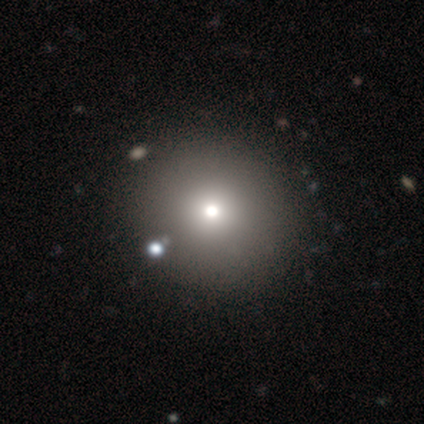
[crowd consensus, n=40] A smooth galaxy with no disk features (72%) that is round (97%). Merging: none (62%).